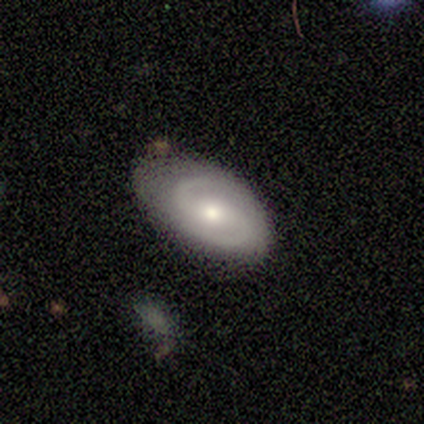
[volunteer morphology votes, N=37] This appears to be a featured or disk galaxy (78%) with no bar (52%), 2 (92%) medium (56%) spiral arms (93%) and a moderate central bulge (63%). Merging: none (54%).